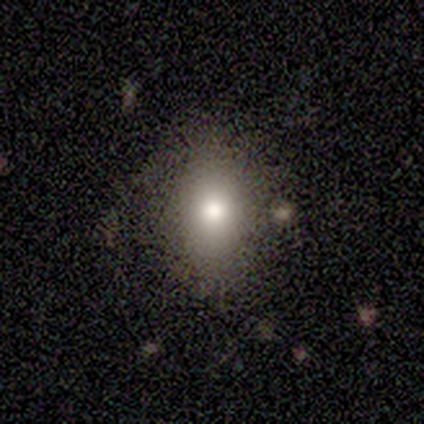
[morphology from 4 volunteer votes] Smooth or featured? smooth (75%)
How rounded? in between (67%)
Merging? none (100%)